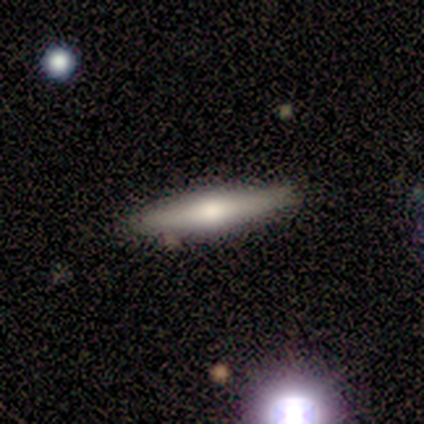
Smooth or featured: featured or disk — 80% (smooth — 20%)
Edge-on disk: yes — 100%
Edge-on bulge: rounded — 100%
Merging: none — 100%